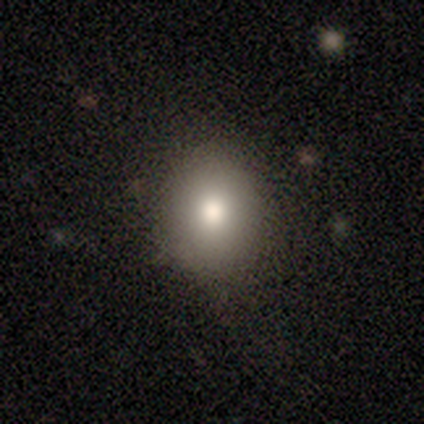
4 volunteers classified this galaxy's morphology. smooth_or_featured: smooth (p=0.75) [alt: star or artifact p=0.25]
how_rounded: round (p=0.67) [alt: in between p=0.33]
merging: none (p=1.00)